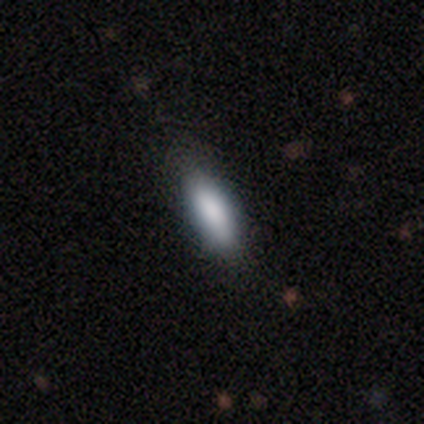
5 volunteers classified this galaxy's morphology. Smooth or featured?
  - smooth: 100% *
  - featured or disk: 0%
  - star or artifact: 0%
How rounded?
  - cigar-shaped: 80% *
  - in between: 20%
  - round: 0%
Merging?
  - none: 100% *
  - minor disturbance: 0%
  - major disturbance: 0%
  - merger: 0%